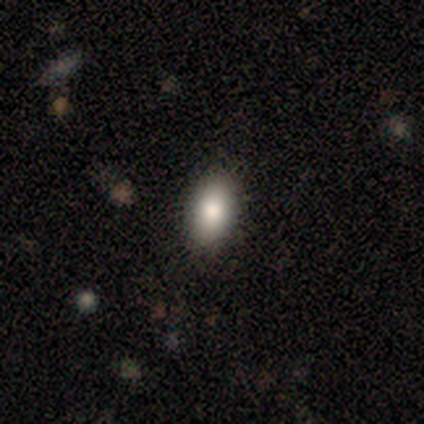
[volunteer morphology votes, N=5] A smooth galaxy with no disk features (80%) that is in between round and cigar-shaped (100%). Merging: none (100%).